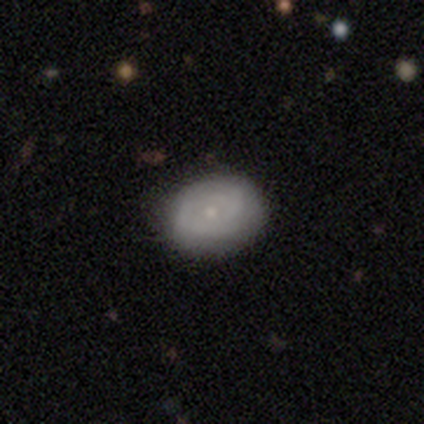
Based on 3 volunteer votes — featured or disk 100%, smooth 0%, star or artifact 0%. Down the decision tree: edge-on disk — no (100%); bar — no (67%); spiral arms — yes (100%); spiral arm count — can't tell (67%); spiral winding — tight (67%); bulge size — small (100%); merging — none (67%).